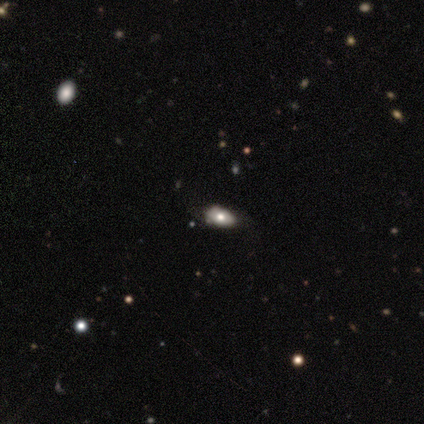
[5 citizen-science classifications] smooth-or-featured: smooth: 40% (tied) | featured or disk: 40% (tied) | star or artifact: 20%
  how-rounded: in between: 100% | round: 0% | cigar-shaped: 0%
  merging: none: 50% (tied) | minor disturbance: 50% (tied) | major disturbance: 0% | merger: 0%